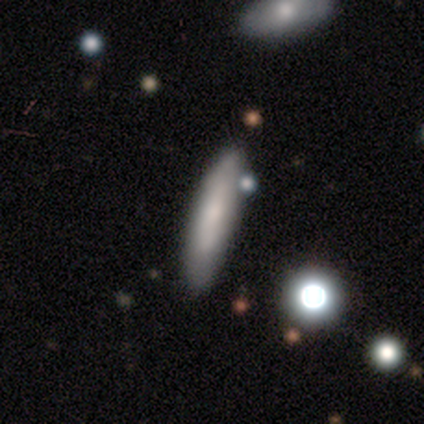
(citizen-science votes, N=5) Smooth or featured: smooth — 100%
How rounded: cigar-shaped — 60% (in between — 40%)
Merging: none — 40% (tied with minor disturbance — 40%)